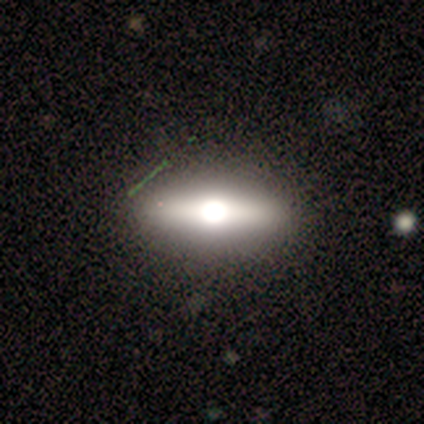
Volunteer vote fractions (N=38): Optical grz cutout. It shows a featured or disk galaxy (47%) viewed edge-on (89%) with a rounded central bulge (100%). Merging: none (60%).